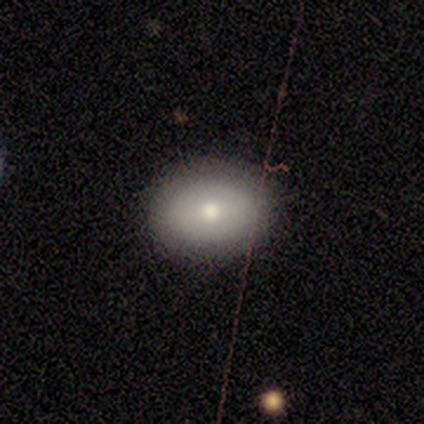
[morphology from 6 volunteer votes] smooth 83%, star or artifact 17%, featured or disk 0%. Down the decision tree: how rounded — in between (80%); merging — none (100%).